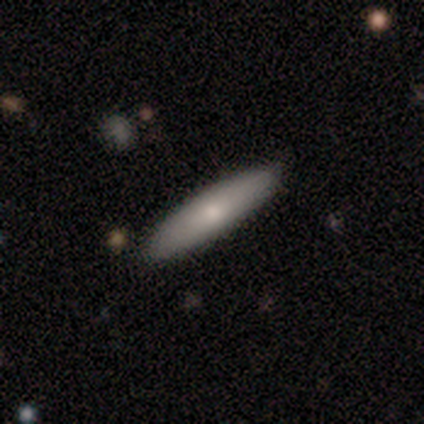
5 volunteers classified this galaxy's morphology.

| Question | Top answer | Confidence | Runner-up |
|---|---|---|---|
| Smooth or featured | smooth | 80% | featured or disk (20%) |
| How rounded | cigar-shaped | 100% | — |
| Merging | none | 100% | — |